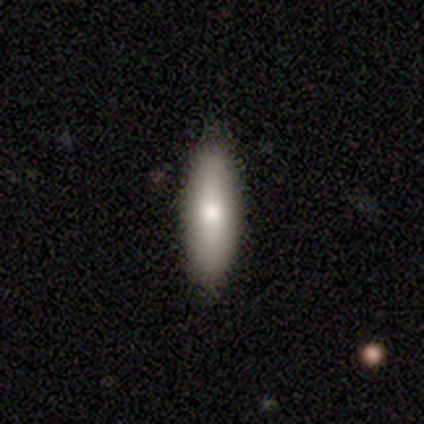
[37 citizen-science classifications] A smooth galaxy with no disk features (70%) that is in between round and cigar-shaped (54%). Merging: none (86%).